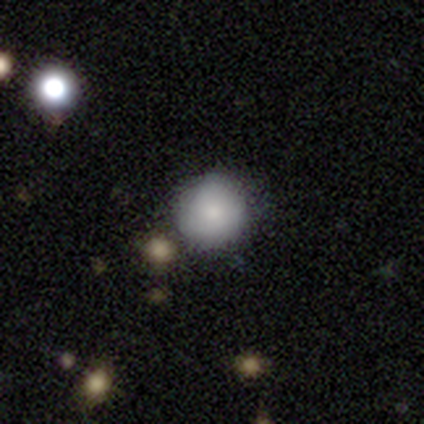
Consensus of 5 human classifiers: Morphology: type=smooth (100%); roundness=round (100%); merging=none (100%).